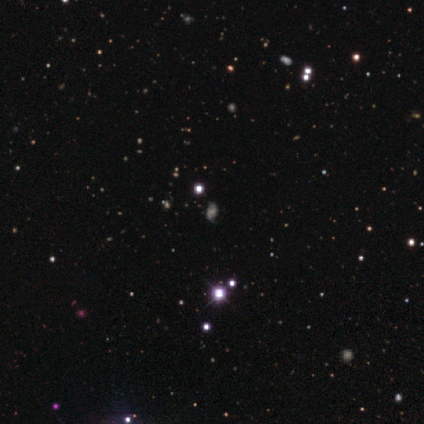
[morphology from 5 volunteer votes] This appears to be a star or artifact, not a galaxy (60%).